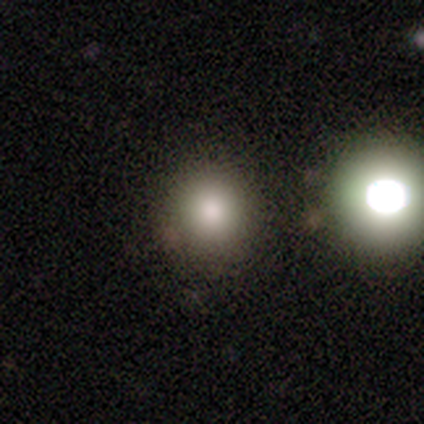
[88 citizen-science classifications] Volunteers were most divided on "smooth or featured": smooth: 73%, star or artifact: 19%, featured or disk: 8%. More confident: how rounded — round (97%); merging — none (79%).